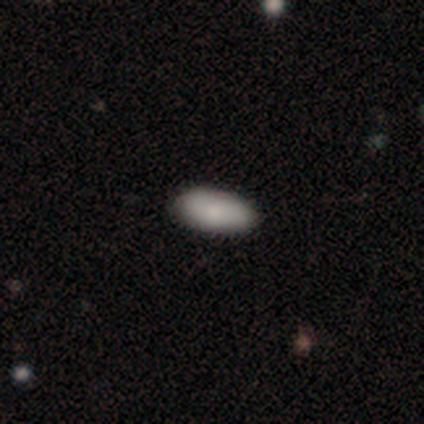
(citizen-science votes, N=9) A smooth galaxy with no disk features (89%) that is in between round and cigar-shaped (100%). Merging: none (89%).